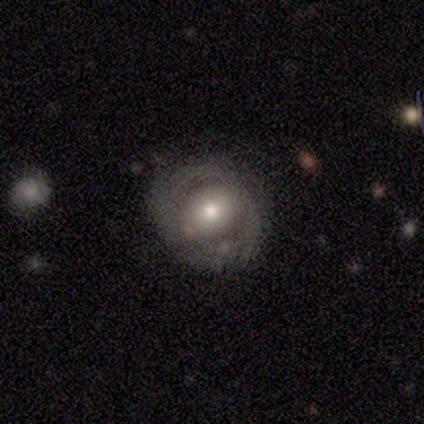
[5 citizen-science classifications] smooth-or-featured: smooth: 60% | featured or disk: 20% | star or artifact: 20%
  how-rounded: round: 100% | in between: 0% | cigar-shaped: 0%
  merging: none: 100% | minor disturbance: 0% | major disturbance: 0% | merger: 0%